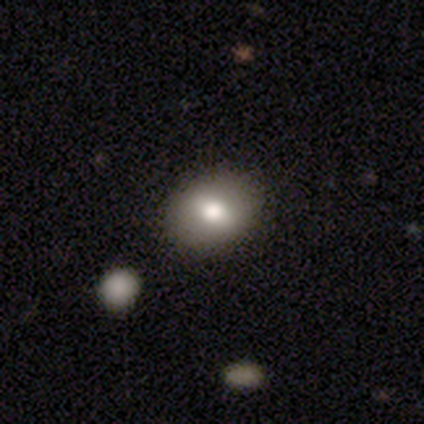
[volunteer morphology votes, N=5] smooth 60%, star or artifact 40%, featured or disk 0%. Down the decision tree: how rounded — in between (67%); merging — none (100%).